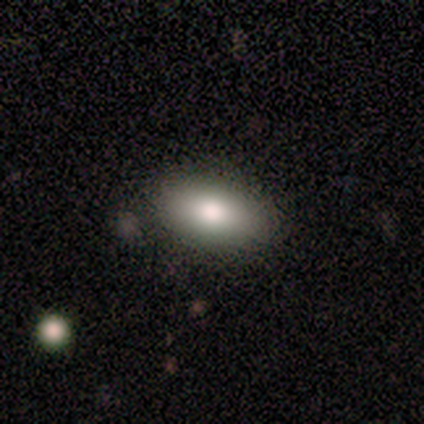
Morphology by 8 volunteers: This appears to be a smooth galaxy with no disk features (62%) that is in between round and cigar-shaped (100%). Merging: none (100%).